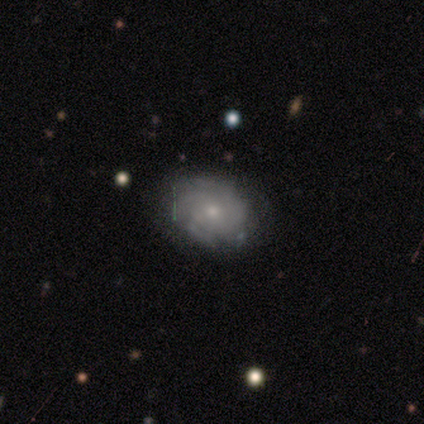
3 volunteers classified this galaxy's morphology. Smooth or featured?
  - featured or disk: 100% *
  - smooth: 0%
  - star or artifact: 0%
Edge-on disk?
  - no: 100% *
  - yes: 0%
Bar?
  - no: 67% *
  - weak: 33%
  - strong: 0%
Spiral arms?
  - yes: 100% *
  - no: 0%
Spiral winding?
  - tight: 67% *
  - medium: 33%
  - loose: 0%
Spiral arm count?
  - 3: 67% *
  - 4: 33%
  - 1: 0%
  - 2: 0%
  - more than 4: 0%
  - can't tell: 0%
Bulge size?
  - moderate: 67% *
  - small: 33%
  - dominant: 0%
  - large: 0%
  - none: 0%
Merging?
  - none: 100% *
  - minor disturbance: 0%
  - major disturbance: 0%
  - merger: 0%